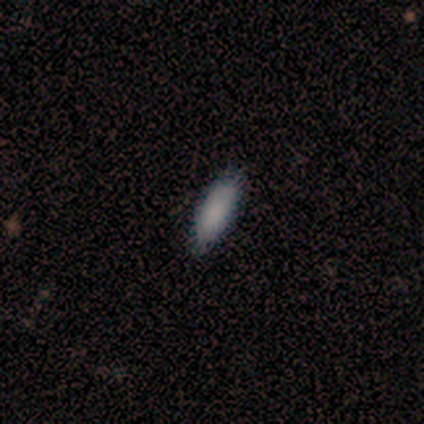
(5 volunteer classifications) Smooth or featured? 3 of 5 (60%) said smooth. How rounded? 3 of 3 (100%) said in between. Merging? 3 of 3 (100%) said none.